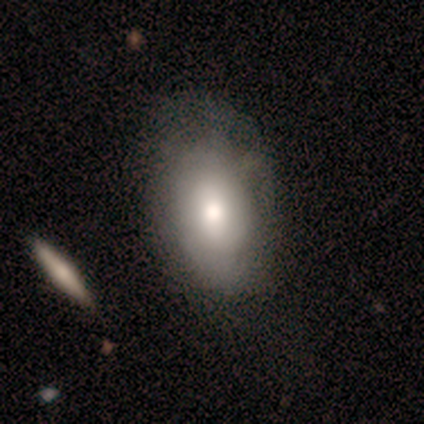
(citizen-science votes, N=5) smooth 60%, featured or disk 20%, star or artifact 20%. Down the decision tree: how rounded — in between (100%); merging — none (100%).